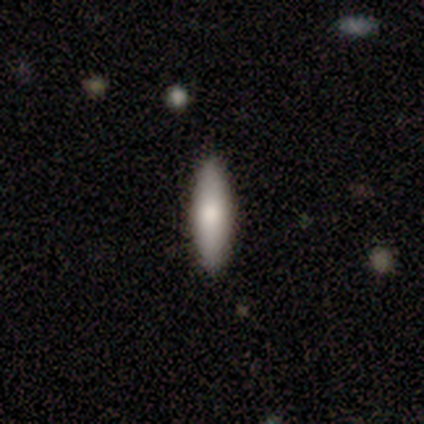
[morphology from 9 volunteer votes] Smooth or featured: smooth — 78% (featured or disk — 22%)
How rounded: cigar-shaped — 100%
Merging: none — 100%